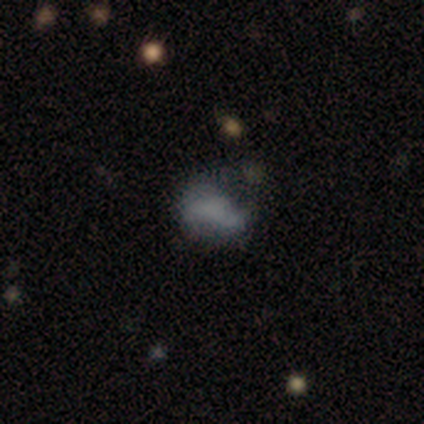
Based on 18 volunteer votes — Q: Smooth or featured?
A: star or artifact (44%); runner-up: smooth (28%)